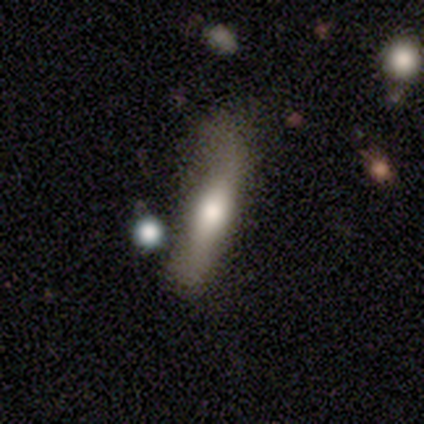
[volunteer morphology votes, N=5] Smooth or featured? smooth (60%)
How rounded? cigar-shaped (100%)
Merging? none (60%)